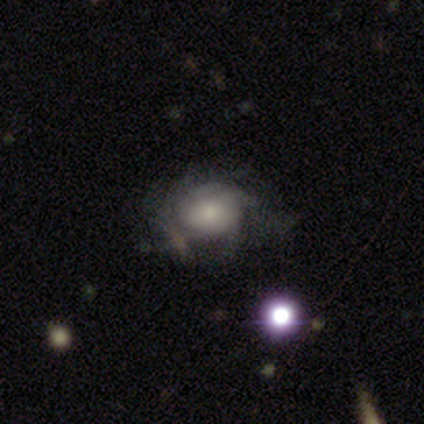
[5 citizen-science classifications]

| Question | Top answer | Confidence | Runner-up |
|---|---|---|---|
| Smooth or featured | featured or disk | 80% | smooth (20%) |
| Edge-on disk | no | 100% | — |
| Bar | no | 100% | — |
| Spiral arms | yes | 100% | — |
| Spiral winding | loose | 75% | tight (25%) |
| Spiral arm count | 3 | 50% | more than 4 (25%) |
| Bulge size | large | 25% | tied: moderate (25%), small (25%), none (25%) |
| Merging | minor disturbance | 40% | none (20%) |